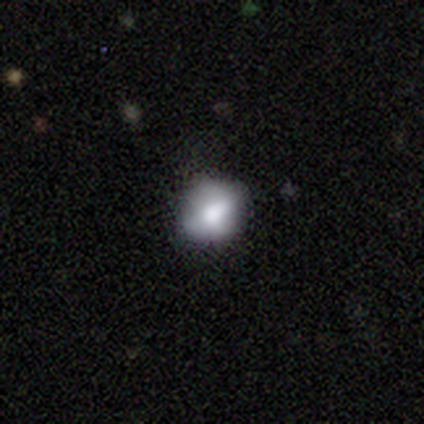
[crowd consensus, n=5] Smooth or featured?
  - smooth: 100% *
  - featured or disk: 0%
  - star or artifact: 0%
How rounded?
  - round: 60% *
  - in between: 40%
  - cigar-shaped: 0%
Merging?
  - minor disturbance: 60% *
  - none: 40%
  - major disturbance: 0%
  - merger: 0%